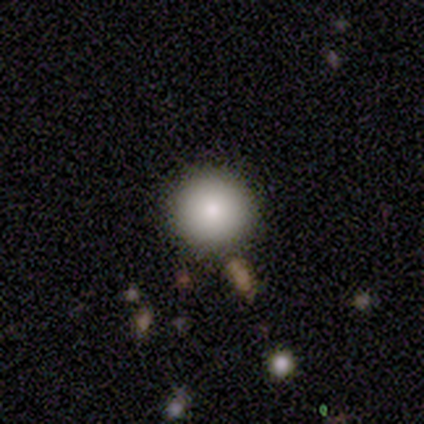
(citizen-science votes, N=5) Morphology: type=smooth (80%); roundness=round (100%); merging=none (75%).